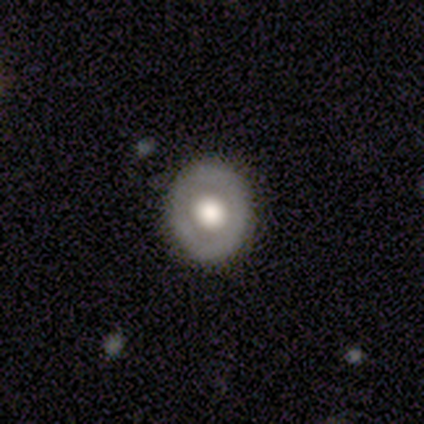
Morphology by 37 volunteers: smooth-or-featured: smooth: 51% | featured or disk: 35% | star or artifact: 14%
  how-rounded: round: 84% | in between: 16% | cigar-shaped: 0%
  merging: none: 91% | minor disturbance: 9% | major disturbance: 0% | merger: 0%